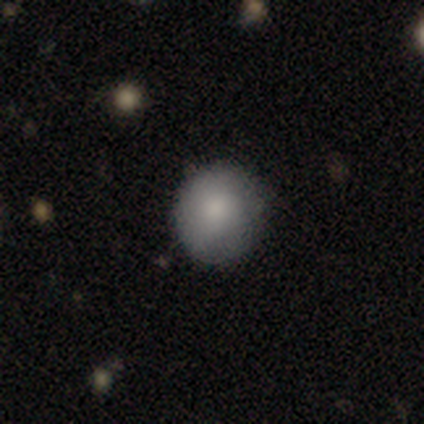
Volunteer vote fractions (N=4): Morphology: type=smooth (100%); roundness=round (100%); merging=none (100%).